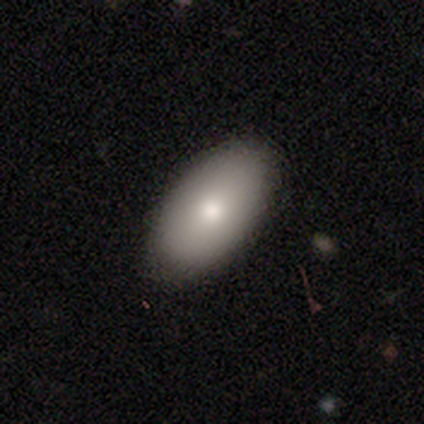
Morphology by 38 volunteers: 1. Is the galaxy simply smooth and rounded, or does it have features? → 87% smooth, 11% featured or disk, 3% star or artifact.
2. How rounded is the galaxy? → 97% in between, 3% round, 0% cigar-shaped.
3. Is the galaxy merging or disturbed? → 89% none, 5% minor disturbance, 5% major disturbance, 0% merger.